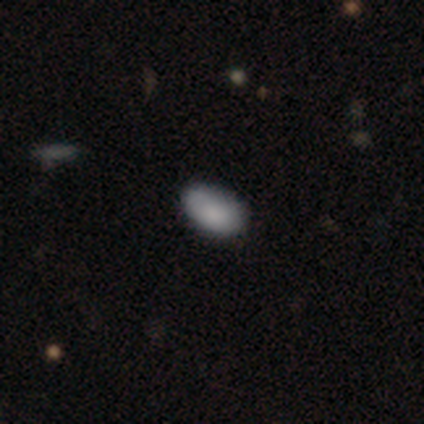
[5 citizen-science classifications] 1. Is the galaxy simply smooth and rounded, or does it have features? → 80% smooth, 20% star or artifact, 0% featured or disk.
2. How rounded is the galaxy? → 100% in between, 0% round, 0% cigar-shaped.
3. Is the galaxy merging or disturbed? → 75% none, 25% major disturbance, 0% minor disturbance, 0% merger.